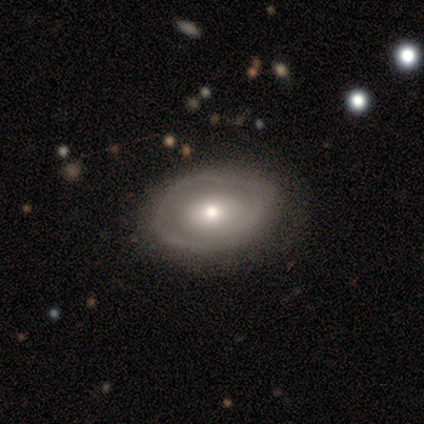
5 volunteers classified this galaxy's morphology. Smooth or featured?
  - featured or disk: 60% *
  - smooth: 40%
  - star or artifact: 0%
Edge-on disk?
  - no: 100% *
  - yes: 0%
Bar?
  - no: 67% *
  - weak: 33%
  - strong: 0%
Spiral arms?
  - no: 67% *
  - yes: 33%
Bulge size?
  - small: 67% *
  - moderate: 33%
  - dominant: 0%
  - large: 0%
  - none: 0%
Merging?
  - minor disturbance: 60% *
  - none: 40%
  - major disturbance: 0%
  - merger: 0%